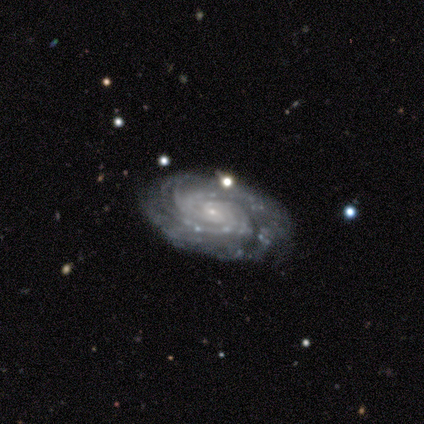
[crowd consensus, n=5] A featured or disk galaxy (100%) with no bar (80%), tight (80%) spiral arms (100%) and a small central bulge (80%).

Vote fractions:
- Smooth or featured? featured or disk: 100% / smooth: 0% / star or artifact: 0%
- Edge-on disk? no: 100% / yes: 0%
- Bar? no: 80% / strong: 20% / weak: 0%
- Spiral arms? yes: 100% / no: 0%
- Spiral winding? tight: 80% / medium: 20% / loose: 0%
- Spiral arm count? can't tell: 60% / 3: 40% / 1: 0% / 2: 0% / 4: 0% / more than 4: 0%
- Bulge size? small: 80% / moderate: 20% / dominant: 0% / large: 0% / none: 0%
- Merging? none: 100% / minor disturbance: 0% / major disturbance: 0% / merger: 0%